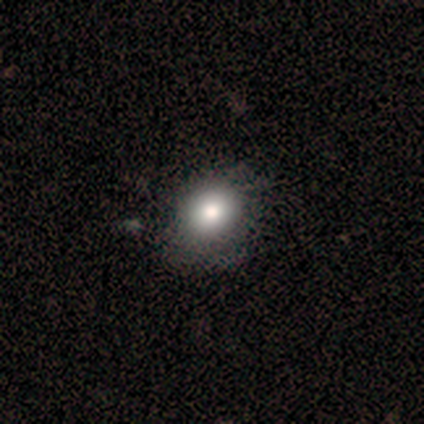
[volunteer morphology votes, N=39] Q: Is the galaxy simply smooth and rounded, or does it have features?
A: smooth — 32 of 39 (82%).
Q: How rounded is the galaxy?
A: round — 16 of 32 (50%, tied with in between).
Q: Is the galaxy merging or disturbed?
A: none — 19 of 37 (51%).